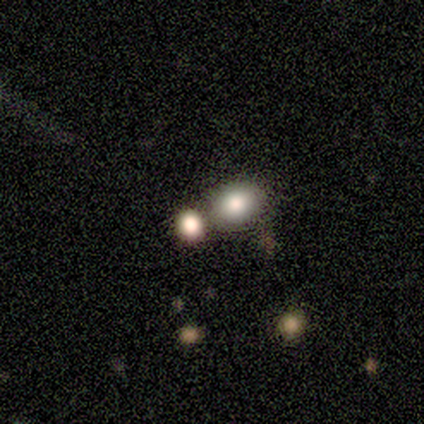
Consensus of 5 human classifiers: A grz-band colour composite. It shows a smooth galaxy with no disk features (60%) that is round (67%). Merging: none (33%, tied with minor disturbance and merger).